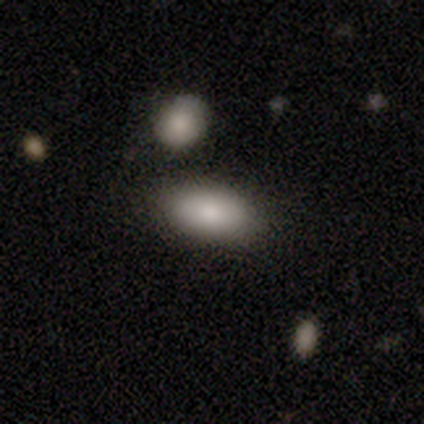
Smooth or featured?
  - smooth: 80% *
  - featured or disk: 18%
  - star or artifact: 2%
How rounded?
  - in between: 91% *
  - cigar-shaped: 9%
  - round: 0%
Merging?
  - none: 79% *
  - minor disturbance: 8%
  - merger: 8%
  - major disturbance: 5%